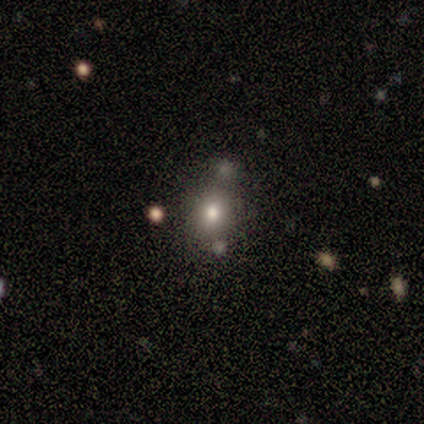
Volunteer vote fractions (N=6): smooth 67%, star or artifact 33%, featured or disk 0%. Down the decision tree: how rounded — round (100%); merging — none (100%).